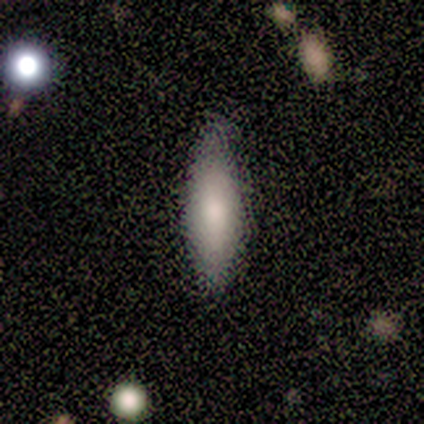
smooth 100%, featured or disk 0%, star or artifact 0%. Down the decision tree: how rounded — in between (60%); merging — none (80%).